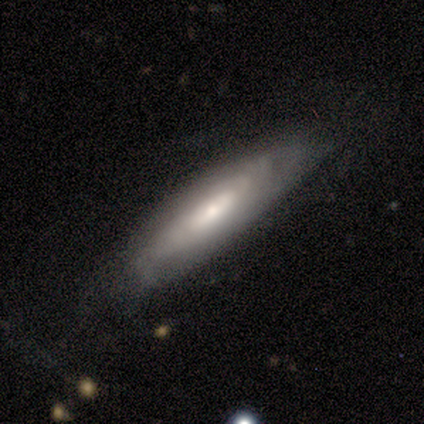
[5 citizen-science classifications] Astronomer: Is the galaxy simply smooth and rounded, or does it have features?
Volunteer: smooth — 60%.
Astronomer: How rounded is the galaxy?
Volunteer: in between — 100%.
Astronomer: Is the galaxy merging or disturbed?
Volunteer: none — 75%.